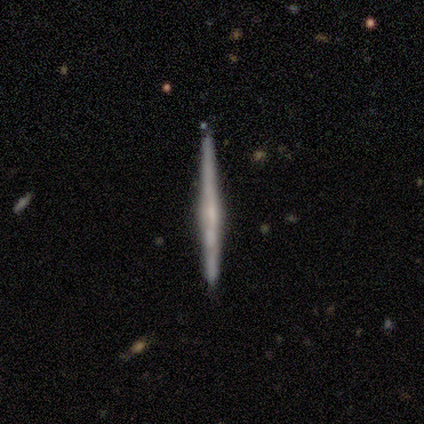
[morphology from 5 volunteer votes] Overall: featured or disk (40%, tied with star or artifact). Edge-on disk: yes (100%). Edge-on bulge: none (50%, tied with rounded). Merging: none (100%).